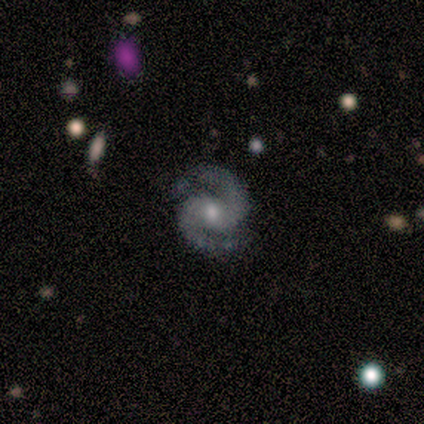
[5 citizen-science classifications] Smooth or featured? 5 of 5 (100%) said featured or disk. Edge-on disk? 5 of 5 (100%) said no. Bar? 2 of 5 (40%, tied with no) said weak. Spiral arms? 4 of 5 (80%) said yes. Spiral winding? 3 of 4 (75%) said medium. Spiral arm count? 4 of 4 (100%) said 2. Bulge size? 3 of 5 (60%) said small. Merging? 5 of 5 (100%) said none.